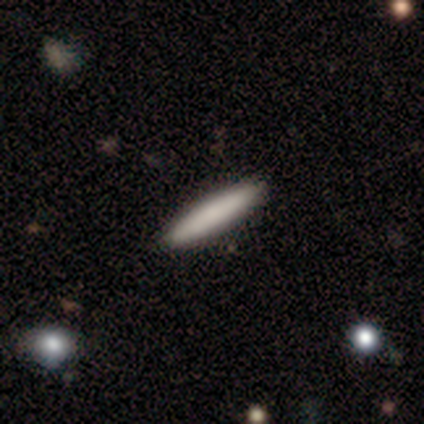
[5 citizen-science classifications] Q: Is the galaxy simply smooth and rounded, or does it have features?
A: smooth — 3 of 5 (60%).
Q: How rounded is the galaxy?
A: cigar-shaped — 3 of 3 (100%).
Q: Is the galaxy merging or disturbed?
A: none — 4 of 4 (100%).